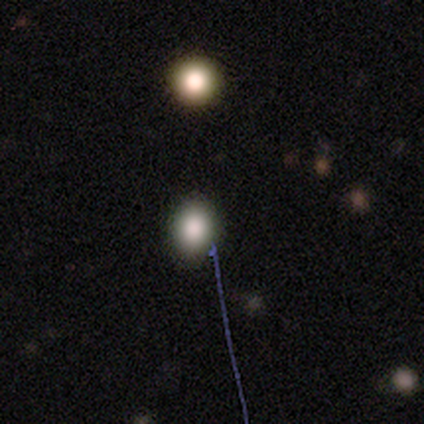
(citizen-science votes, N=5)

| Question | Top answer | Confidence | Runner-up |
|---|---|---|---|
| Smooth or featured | smooth | 100% | — |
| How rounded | round | 80% | in between (20%) |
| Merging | none | 100% | — |